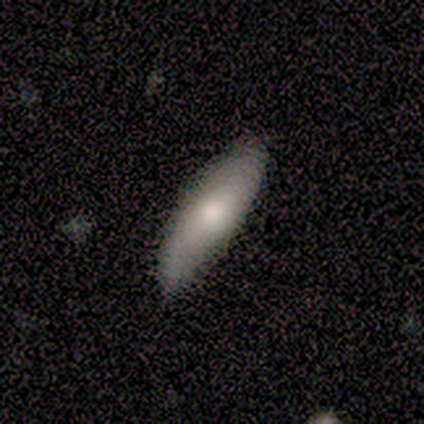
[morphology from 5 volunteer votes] type=smooth (80%); roundness=in between (50%, tied with cigar-shaped); merging=none (80%).